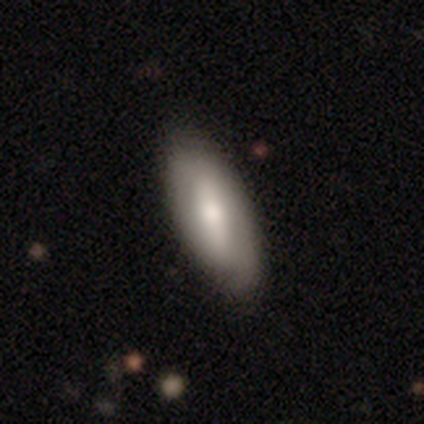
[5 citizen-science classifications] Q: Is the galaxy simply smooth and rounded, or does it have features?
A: smooth — 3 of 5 (60%).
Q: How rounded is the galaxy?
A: in between — 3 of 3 (100%).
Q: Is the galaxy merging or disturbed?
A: none — 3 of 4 (75%).